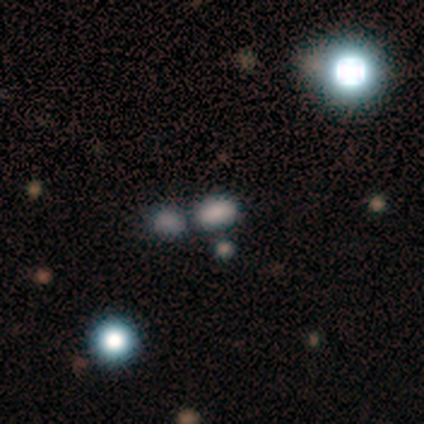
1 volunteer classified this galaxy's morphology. Smooth or featured? smooth (100%)
How rounded? in between (100%)
Merging? none (100%)